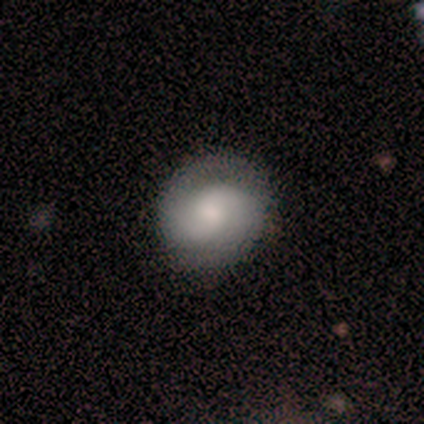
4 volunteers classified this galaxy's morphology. This is possibly a smooth galaxy (50%). How rounded: clearly round (100%). Merging: clearly none (100%).